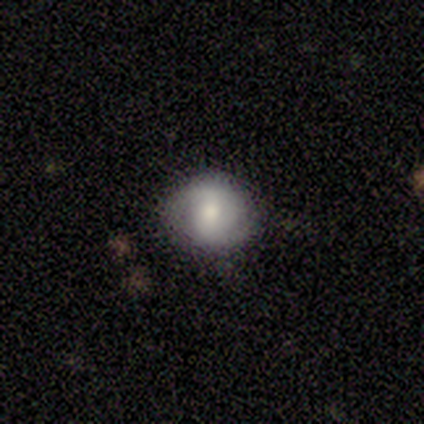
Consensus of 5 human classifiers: This is likely a featured or disk galaxy (60%). It is clearly not viewed edge-on (100%). Bar: clearly no (100%). Spiral arm pattern: likely yes (67%). Spiral arm count: clearly 2 (100%). Spiral winding: clearly medium (100%). Central bulge: marginally large (33%, tied with moderate and none). Merging: clearly none (80%).